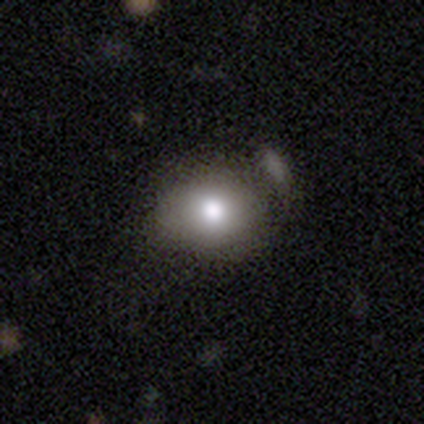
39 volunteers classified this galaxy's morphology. Overall: smooth (79%). How rounded: round (52%; in between 48%). Merging: none (54%; minor disturbance 29%).